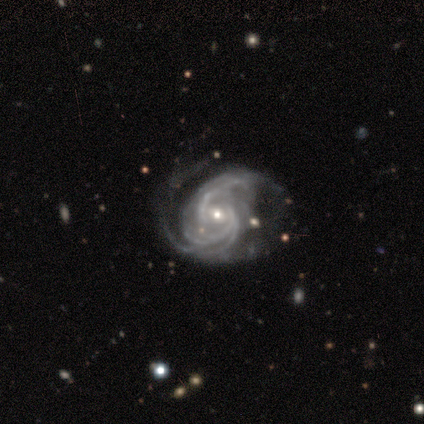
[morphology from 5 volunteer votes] Smooth or featured?
  - featured or disk: 100% *
  - smooth: 0%
  - star or artifact: 0%
Edge-on disk?
  - no: 80% *
  - yes: 20%
Bar?
  - weak: 50% * (tied)
  - no: 50% * (tied)
  - strong: 0%
Spiral arms?
  - yes: 100% *
  - no: 0%
Spiral winding?
  - tight: 50% * (tied)
  - medium: 50% * (tied)
  - loose: 0%
Spiral arm count?
  - 2: 50% * (tied)
  - 3: 50% * (tied)
  - 1: 0%
  - 4: 0%
  - more than 4: 0%
  - can't tell: 0%
Bulge size?
  - moderate: 75% *
  - small: 25%
  - dominant: 0%
  - large: 0%
  - none: 0%
Merging?
  - none: 60% *
  - major disturbance: 40%
  - minor disturbance: 0%
  - merger: 0%